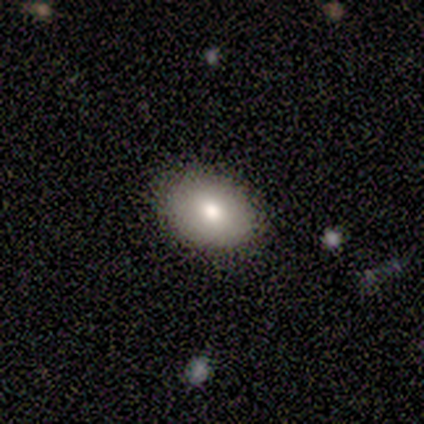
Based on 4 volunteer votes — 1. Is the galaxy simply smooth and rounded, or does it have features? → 100% smooth, 0% featured or disk, 0% star or artifact.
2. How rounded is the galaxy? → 100% in between, 0% round, 0% cigar-shaped.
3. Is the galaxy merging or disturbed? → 100% none, 0% minor disturbance, 0% major disturbance, 0% merger.